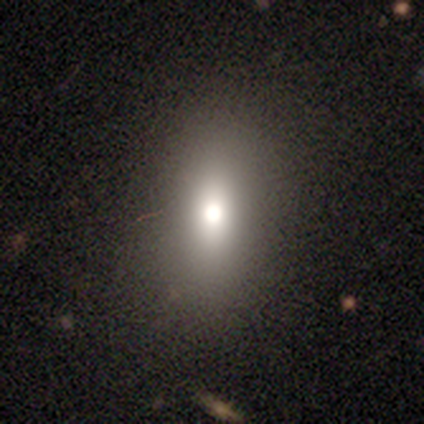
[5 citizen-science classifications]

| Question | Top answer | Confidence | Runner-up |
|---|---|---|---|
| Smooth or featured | smooth | 60% | star or artifact (40%) |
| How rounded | round | 33% | tied: in between (33%), cigar-shaped (33%) |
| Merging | none | 100% | — |